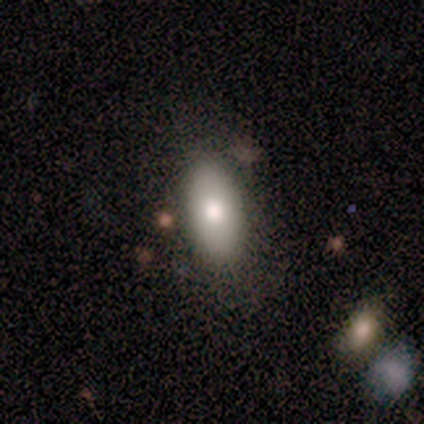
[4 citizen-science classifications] Smooth or featured? 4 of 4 (100%) said smooth. How rounded? 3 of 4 (75%) said in between. Merging? 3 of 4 (75%) said none.